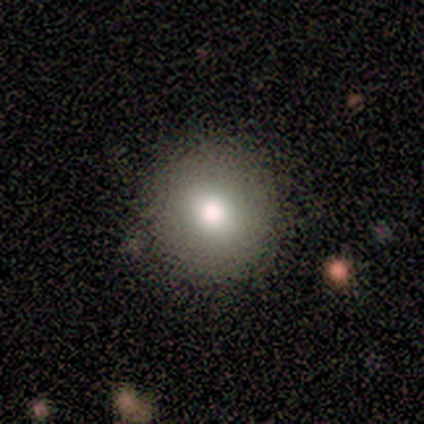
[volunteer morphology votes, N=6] A smooth galaxy with no disk features (83%) that is round (60%). Merging: none (100%).